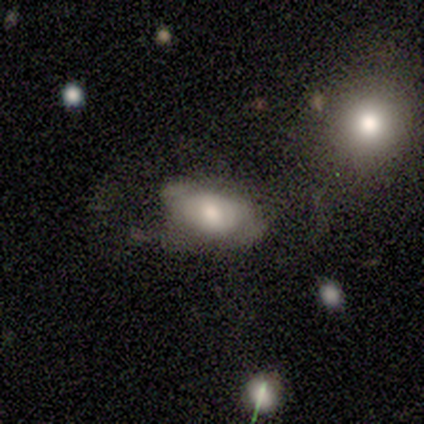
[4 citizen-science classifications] This appears to be a smooth galaxy with no disk features (75%) that is in between round and cigar-shaped (100%). Merging: none (67%).